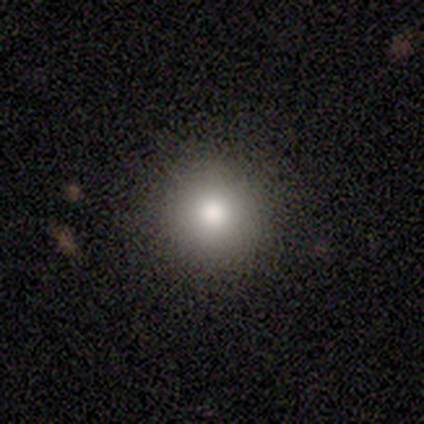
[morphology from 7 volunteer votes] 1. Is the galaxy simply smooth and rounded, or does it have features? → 71% smooth, 29% featured or disk, 0% star or artifact.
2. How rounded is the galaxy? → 100% round, 0% in between, 0% cigar-shaped.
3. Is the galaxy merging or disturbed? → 86% none, 14% merger, 0% minor disturbance, 0% major disturbance.